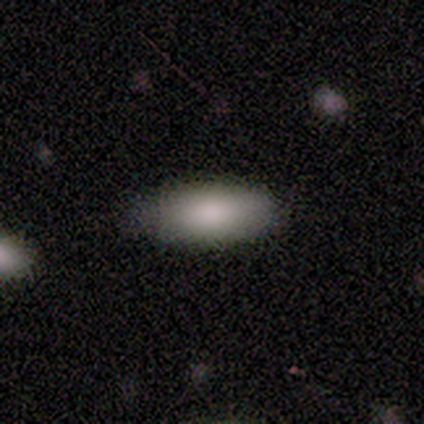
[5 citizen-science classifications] A smooth galaxy with no disk features (100%) that is in between round and cigar-shaped (80%). Merging: minor disturbance (60%).